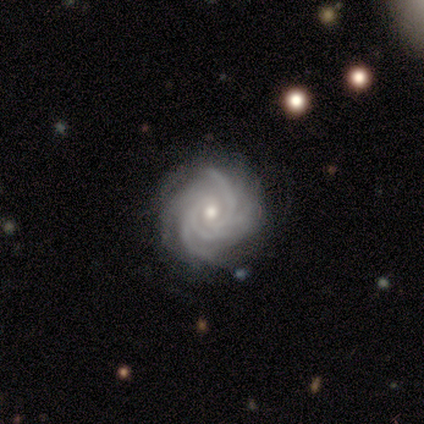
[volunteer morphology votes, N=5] Overall: featured or disk (80%). Edge-on disk: no (100%). Bar: no (100%). Spiral arms: yes (100%). Spiral arm count: more than 4 (50%; 4 25%). Spiral winding: tight (100%). Bulge size: moderate (75%). Merging: none (80%).